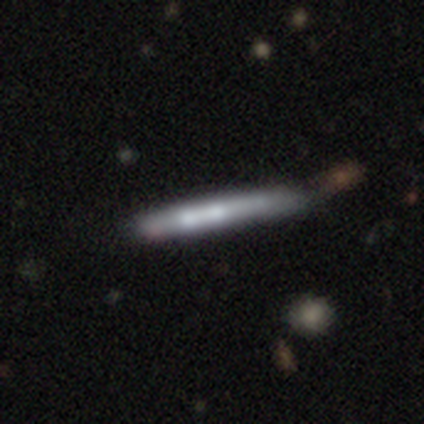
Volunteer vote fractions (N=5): Smooth or featured?
  - featured or disk: 60% *
  - smooth: 40%
  - star or artifact: 0%
Edge-on disk?
  - yes: 100% *
  - no: 0%
Edge-on bulge?
  - rounded: 67% *
  - none: 33%
  - boxy: 0%
Merging?
  - none: 60% *
  - minor disturbance: 40%
  - major disturbance: 0%
  - merger: 0%